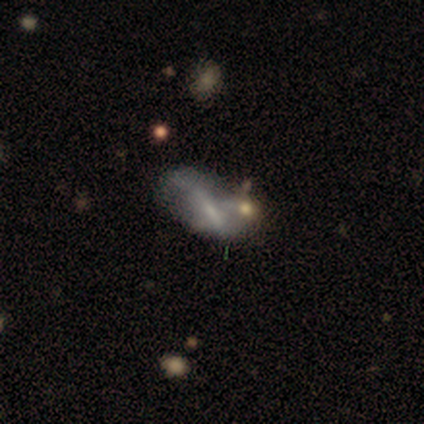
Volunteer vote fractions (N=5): A featured or disk galaxy (80%) with a weak bar (67%), no spiral arms (100%) and a small central bulge (100%). Merging: minor disturbance (60%).